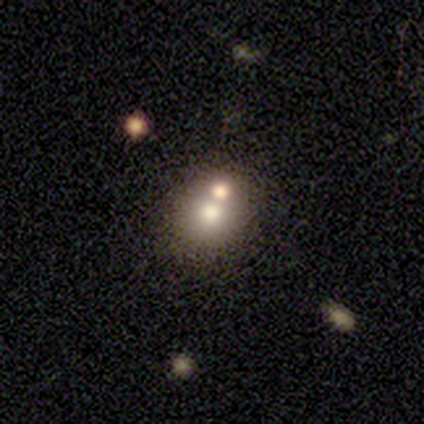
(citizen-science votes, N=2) Consensus on every question: smooth or featured — smooth (100%); how rounded — in between (100%); merging — merger (100%).